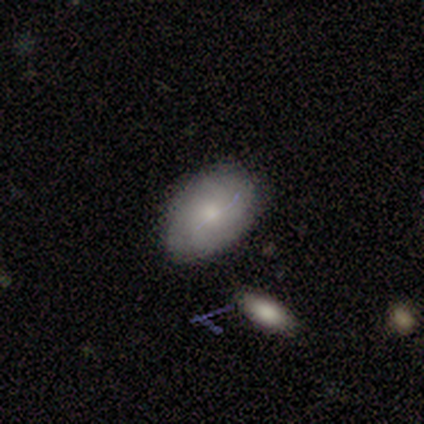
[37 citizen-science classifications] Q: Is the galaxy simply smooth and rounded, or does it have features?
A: smooth — 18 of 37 (49%).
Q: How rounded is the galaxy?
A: in between — 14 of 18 (78%).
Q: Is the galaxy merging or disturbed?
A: none — 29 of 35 (83%).